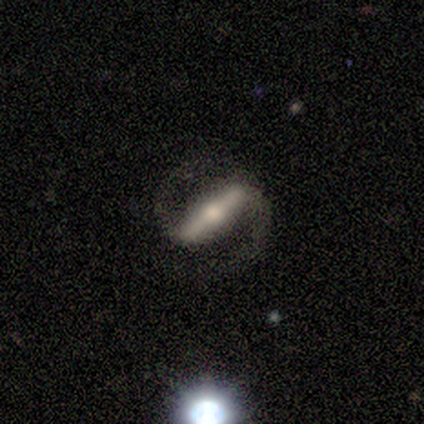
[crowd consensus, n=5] A featured or disk galaxy (100%) with a strong bar (50%, tied with weak), 2 (100%) tight (33%, tied with medium and loose) spiral arms (75%) and a moderate central bulge (50%, tied with small). Merging: none (100%).